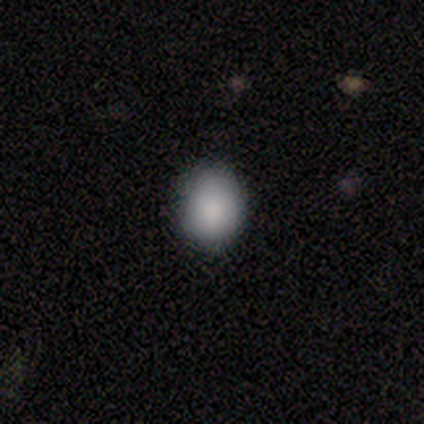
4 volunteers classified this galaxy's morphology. A smooth galaxy with no disk features (100%) that is in between round and cigar-shaped (75%).

Vote fractions:
- Smooth or featured? smooth: 100% / featured or disk: 0% / star or artifact: 0%
- How rounded? in between: 75% / round: 25% / cigar-shaped: 0%
- Merging? none: 75% / minor disturbance: 25% / major disturbance: 0% / merger: 0%